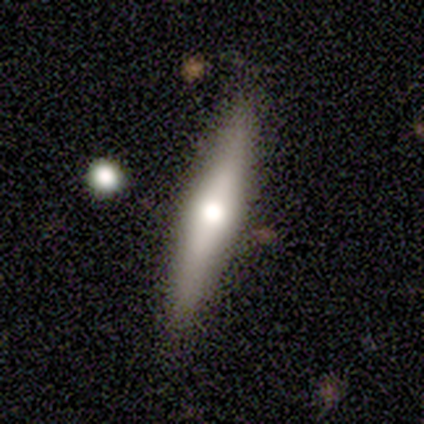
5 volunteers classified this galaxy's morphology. type=smooth (60%); roundness=cigar-shaped (100%); merging=none (100%).